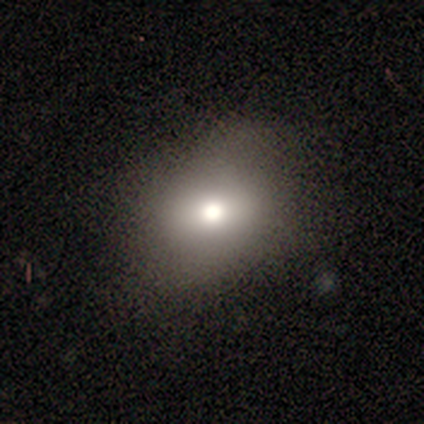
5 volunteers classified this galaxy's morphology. smooth-or-featured: smooth: 80% | featured or disk: 20% | star or artifact: 0%
  how-rounded: in between: 75% | round: 25% | cigar-shaped: 0%
  merging: none: 60% | major disturbance: 40% | minor disturbance: 0% | merger: 0%